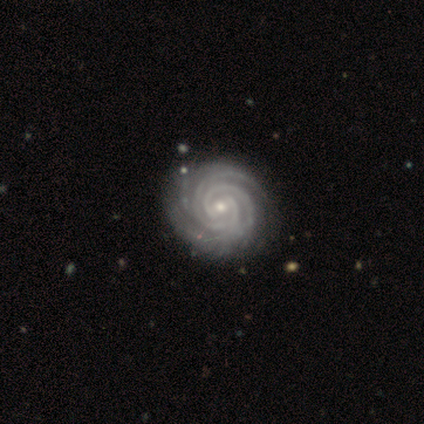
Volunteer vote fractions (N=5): Smooth or featured?
  - featured or disk: 100% *
  - smooth: 0%
  - star or artifact: 0%
Edge-on disk?
  - no: 100% *
  - yes: 0%
Bar?
  - weak: 80% *
  - no: 20%
  - strong: 0%
Spiral arms?
  - yes: 80% *
  - no: 20%
Spiral winding?
  - tight: 100% *
  - medium: 0%
  - loose: 0%
Spiral arm count?
  - 3: 50% *
  - 2: 25%
  - 4: 25%
  - 1: 0%
  - more than 4: 0%
  - can't tell: 0%
Bulge size?
  - moderate: 80% *
  - small: 20%
  - dominant: 0%
  - large: 0%
  - none: 0%
Merging?
  - none: 60% *
  - minor disturbance: 20%
  - merger: 20%
  - major disturbance: 0%